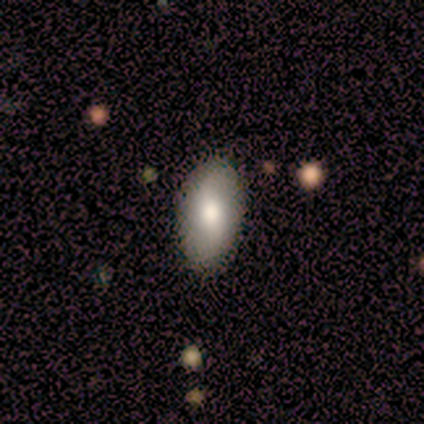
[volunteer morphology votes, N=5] Smooth or featured: featured or disk — 60% (smooth — 40%)
Edge-on disk: no — 100%
Bar: no — 67% (weak — 33%)
Spiral arms: no — 67% (yes — 33%)
Bulge size: moderate — 100%
Merging: none — 100%